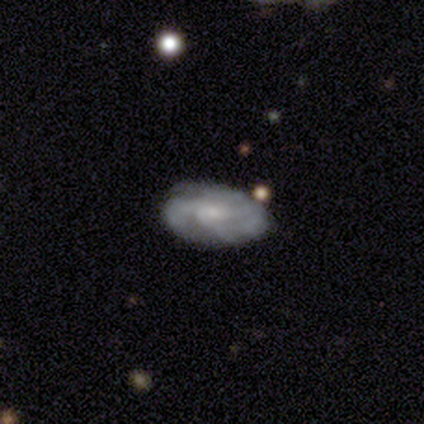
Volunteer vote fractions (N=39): Smooth or featured?
  - featured or disk: 64% *
  - smooth: 36%
  - star or artifact: 0%
Edge-on disk?
  - no: 96% *
  - yes: 4%
Bar?
  - no: 62% *
  - weak: 33%
  - strong: 4%
Spiral arms?
  - yes: 96% *
  - no: 4%
Spiral winding?
  - medium: 61% *
  - tight: 35%
  - loose: 4%
Spiral arm count?
  - 3: 39% *
  - 2: 30%
  - can't tell: 17%
  - 4: 9%
  - more than 4: 4%
  - 1: 0%
Bulge size?
  - small: 54% *
  - moderate: 25%
  - none: 21%
  - dominant: 0%
  - large: 0%
Merging?
  - none: 67% *
  - minor disturbance: 21%
  - major disturbance: 10%
  - merger: 3%